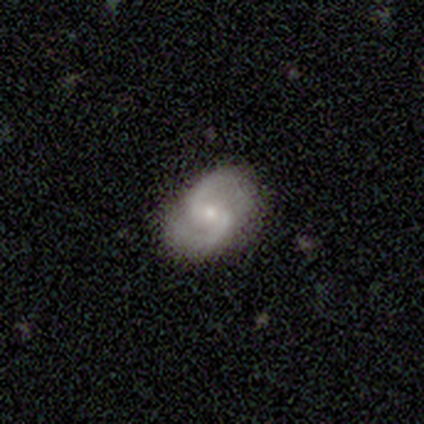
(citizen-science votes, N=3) Smooth or featured? 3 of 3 (100%) said featured or disk. Edge-on disk? 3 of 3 (100%) said no. Bar? 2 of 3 (67%) said no. Spiral arms? 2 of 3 (67%) said yes. Spiral winding? 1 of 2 (50%, tied with loose) said medium. Spiral arm count? 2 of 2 (100%) said 2. Bulge size? 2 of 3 (67%) said moderate. Merging? 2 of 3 (67%) said none.